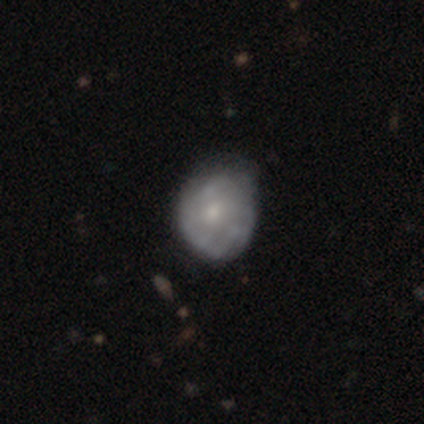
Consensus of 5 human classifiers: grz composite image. It shows a smooth galaxy with no disk features (60%) that is round (67%). Merging: none (80%).